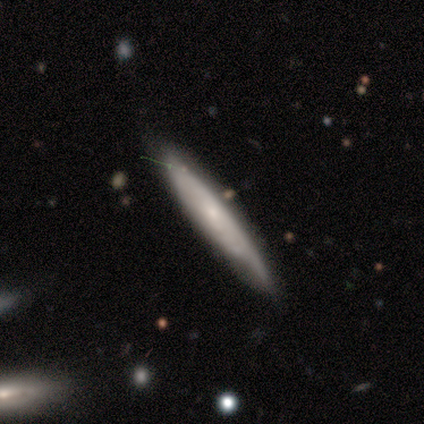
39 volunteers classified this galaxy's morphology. A featured or disk galaxy (56%) viewed edge-on (68%) with no central bulge (47%, tied with rounded). Merging: none (56%).